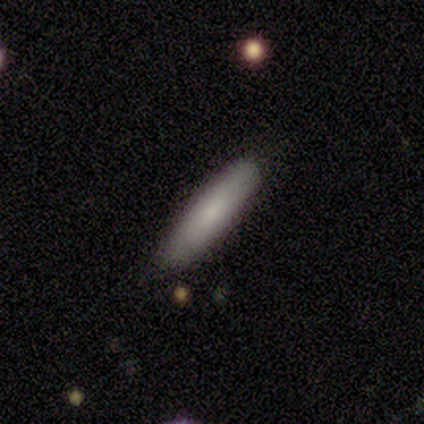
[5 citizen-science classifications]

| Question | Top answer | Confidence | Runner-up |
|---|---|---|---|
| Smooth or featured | smooth | 100% | — |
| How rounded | cigar-shaped | 100% | — |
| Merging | none | 80% | merger (20%) |